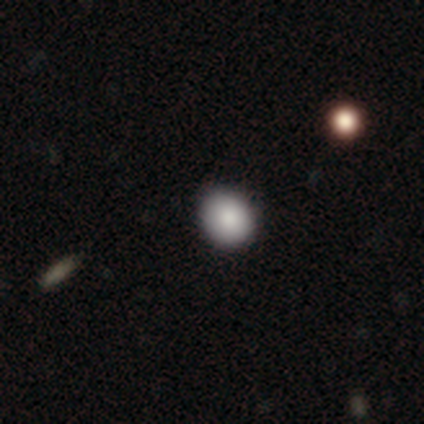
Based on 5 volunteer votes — smooth_or_featured: smooth (p=0.60) [alt: star or artifact p=0.40]
how_rounded: round (p=1.00)
merging: none (p=1.00)